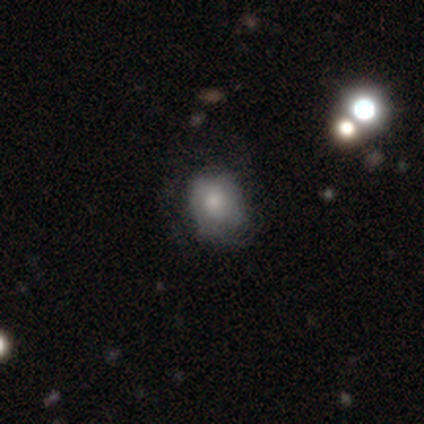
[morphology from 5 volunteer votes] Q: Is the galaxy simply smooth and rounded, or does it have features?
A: smooth — 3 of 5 (60%).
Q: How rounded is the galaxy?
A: round — 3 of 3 (100%).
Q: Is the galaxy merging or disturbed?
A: none — 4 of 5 (80%).